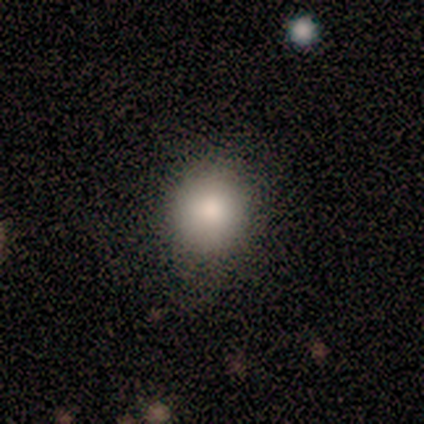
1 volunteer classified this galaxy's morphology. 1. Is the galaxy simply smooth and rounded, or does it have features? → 100% smooth, 0% featured or disk, 0% star or artifact.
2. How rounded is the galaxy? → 100% in between, 0% round, 0% cigar-shaped.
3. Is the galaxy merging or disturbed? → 100% minor disturbance, 0% none, 0% major disturbance, 0% merger.